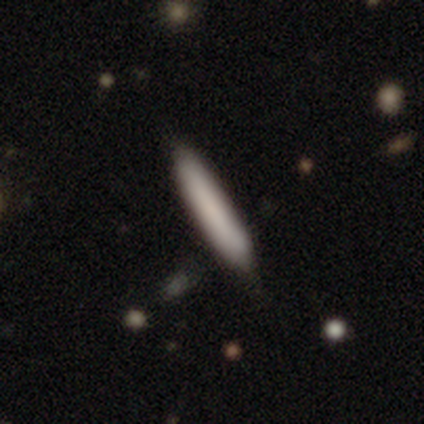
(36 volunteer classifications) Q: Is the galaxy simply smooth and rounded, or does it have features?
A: smooth — 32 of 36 (89%).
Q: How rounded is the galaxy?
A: cigar-shaped — 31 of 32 (97%).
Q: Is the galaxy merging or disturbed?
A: none — 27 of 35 (77%).